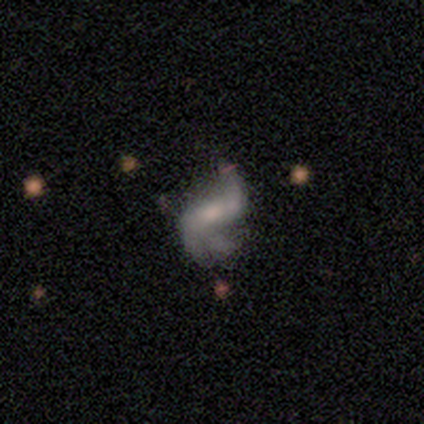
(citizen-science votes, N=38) Smooth or featured?
  - featured or disk: 97% *
  - star or artifact: 3%
  - smooth: 0%
Edge-on disk?
  - no: 100% *
  - yes: 0%
Bar?
  - strong: 51% *
  - weak: 38%
  - no: 11%
Spiral arms?
  - yes: 97% *
  - no: 3%
Spiral winding?
  - loose: 78% *
  - medium: 19%
  - tight: 3%
Spiral arm count?
  - 2: 92% *
  - 3: 6%
  - 1: 3%
  - 4: 0%
  - more than 4: 0%
  - can't tell: 0%
Bulge size?
  - moderate: 43% *
  - small: 35%
  - none: 16%
  - dominant: 3%
  - large: 3%
Merging?
  - none: 43% *
  - minor disturbance: 41%
  - major disturbance: 11%
  - merger: 5%